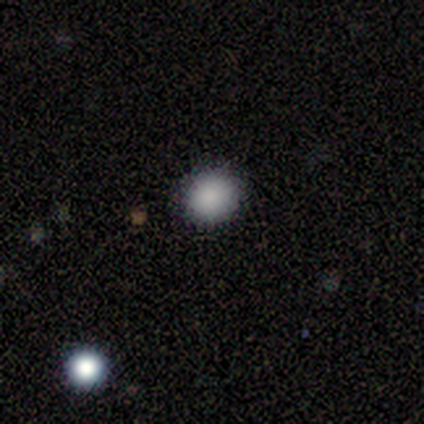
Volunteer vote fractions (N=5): Smooth or featured? smooth (100%)
How rounded? round (100%)
Merging? none (100%)